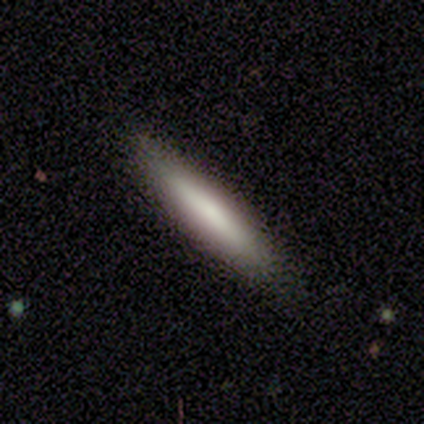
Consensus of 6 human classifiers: Overall: smooth (83%). How rounded: cigar-shaped (100%). Merging: none (100%).